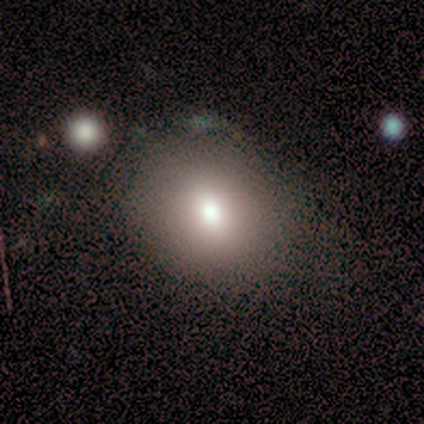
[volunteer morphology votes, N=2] A smooth galaxy with no disk features (50%, tied with star or artifact) that is in between round and cigar-shaped (100%).

Vote fractions:
- Smooth or featured? smooth: 50% (tied) / star or artifact: 50% (tied) / featured or disk: 0%
- How rounded? in between: 100% / round: 0% / cigar-shaped: 0%
- Merging? none: 100% / minor disturbance: 0% / major disturbance: 0% / merger: 0%